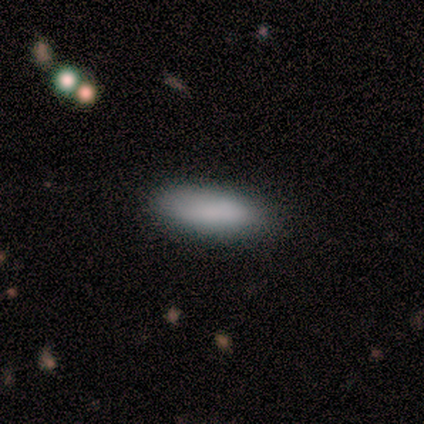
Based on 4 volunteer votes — Volunteers were most divided on "how rounded": in between: 75%, cigar-shaped: 25%, round: 0%. More confident: smooth or featured — smooth (100%); merging — none (75%).